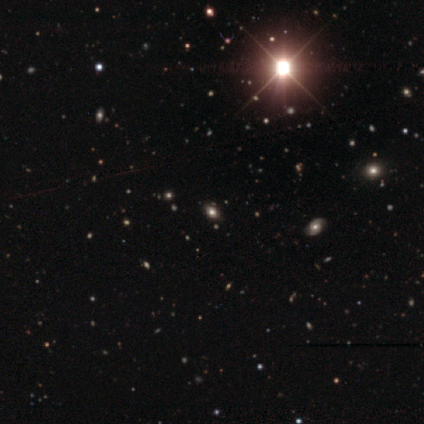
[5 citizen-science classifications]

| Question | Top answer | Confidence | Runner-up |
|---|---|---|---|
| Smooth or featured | star or artifact | 80% | smooth (20%) |